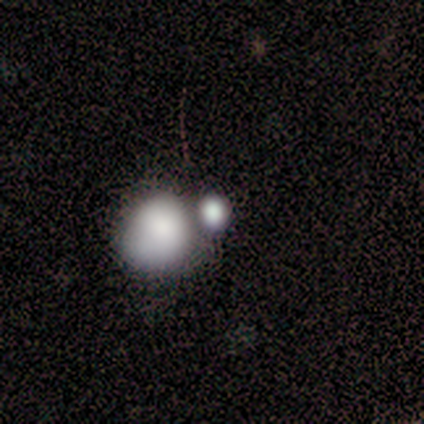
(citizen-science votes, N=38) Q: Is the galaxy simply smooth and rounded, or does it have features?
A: smooth — 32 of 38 (84%).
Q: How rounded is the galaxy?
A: round — 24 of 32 (75%).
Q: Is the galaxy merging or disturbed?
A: merger — 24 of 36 (67%).